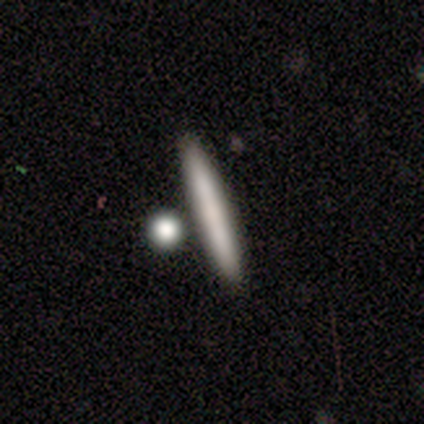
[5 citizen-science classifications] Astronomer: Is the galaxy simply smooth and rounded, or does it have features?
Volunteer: smooth — 60% (runner-up: featured or disk, 40%).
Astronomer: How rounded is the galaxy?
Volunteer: cigar-shaped — 100%.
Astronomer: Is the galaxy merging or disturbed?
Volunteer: none — 80%.